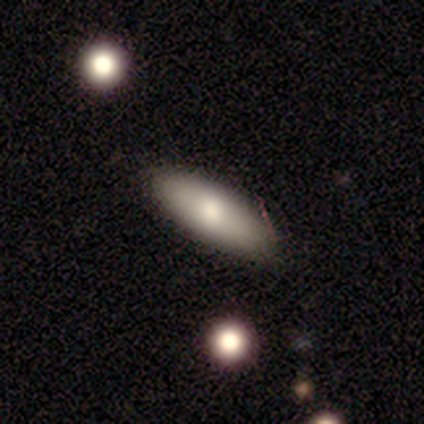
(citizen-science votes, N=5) Smooth or featured?
  - smooth: 80% *
  - featured or disk: 20%
  - star or artifact: 0%
How rounded?
  - in between: 100% *
  - round: 0%
  - cigar-shaped: 0%
Merging?
  - none: 80% *
  - minor disturbance: 20%
  - major disturbance: 0%
  - merger: 0%